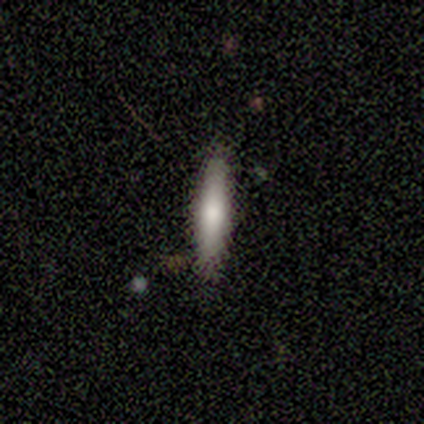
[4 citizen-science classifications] Q: Smooth or featured?
A: smooth (75%); runner-up: featured or disk (25%)
Q: How rounded?
A: cigar-shaped (100%)
Q: Merging?
A: none (100%)